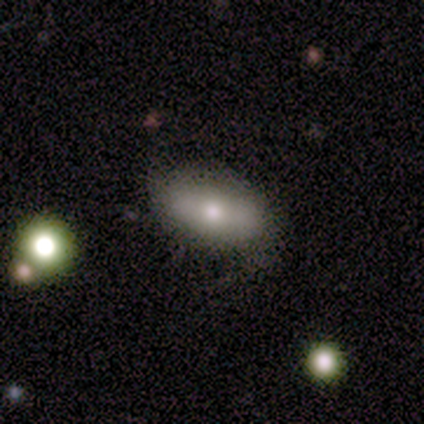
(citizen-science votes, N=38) smooth_or_featured: smooth (p=0.61) [alt: featured or disk p=0.37]
how_rounded: in between (p=0.91) [alt: round p=0.04]
merging: none (p=0.54) [alt: minor disturbance p=0.32]